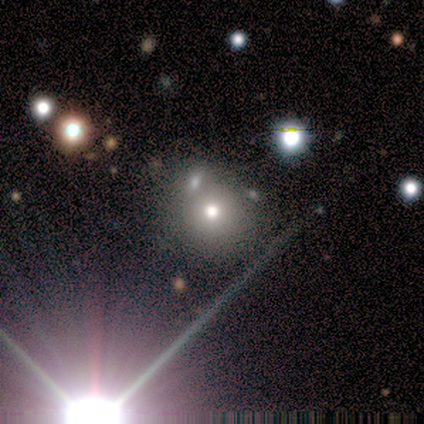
smooth 40% (tied), star or artifact 40% (tied), featured or disk 20%. Down the decision tree: how rounded — round (50%, tied with in between); merging — none (100%).